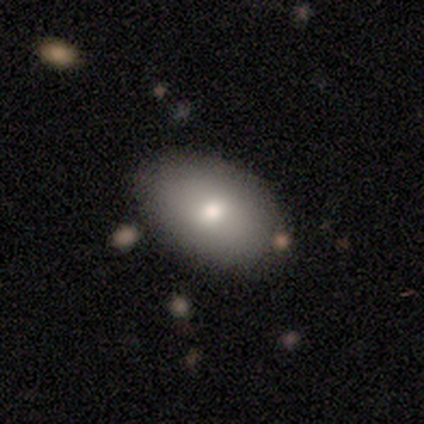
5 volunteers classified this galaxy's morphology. A smooth galaxy with no disk features (80%) that is in between round and cigar-shaped (100%).

Vote fractions:
- Smooth or featured? smooth: 80% / featured or disk: 20% / star or artifact: 0%
- How rounded? in between: 100% / round: 0% / cigar-shaped: 0%
- Merging? none: 40% (tied) / minor disturbance: 40% (tied) / merger: 20% / major disturbance: 0%